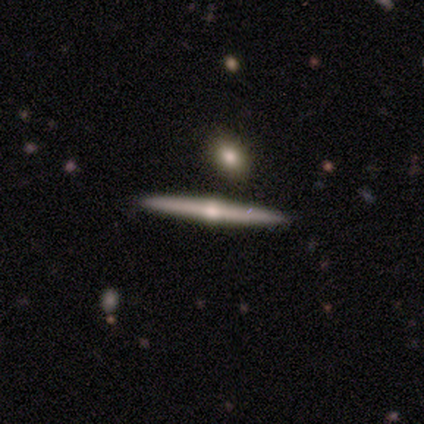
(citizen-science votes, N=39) Smooth or featured?
  - featured or disk: 87% *
  - smooth: 13%
  - star or artifact: 0%
Edge-on disk?
  - yes: 97% *
  - no: 3%
Edge-on bulge?
  - rounded: 91% *
  - none: 6%
  - boxy: 3%
Merging?
  - none: 90% *
  - major disturbance: 5%
  - merger: 5%
  - minor disturbance: 0%